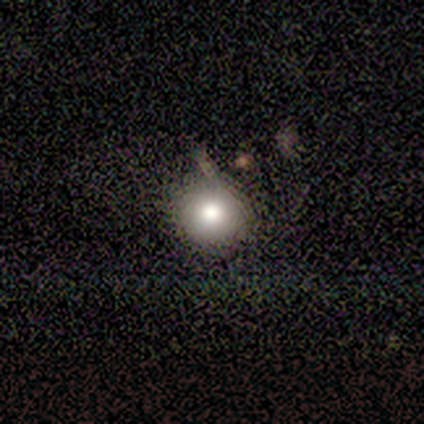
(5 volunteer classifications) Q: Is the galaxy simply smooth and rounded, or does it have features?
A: smooth — 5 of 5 (100%).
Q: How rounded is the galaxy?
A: round — 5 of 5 (100%).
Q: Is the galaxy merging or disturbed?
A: minor disturbance — 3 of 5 (60%).